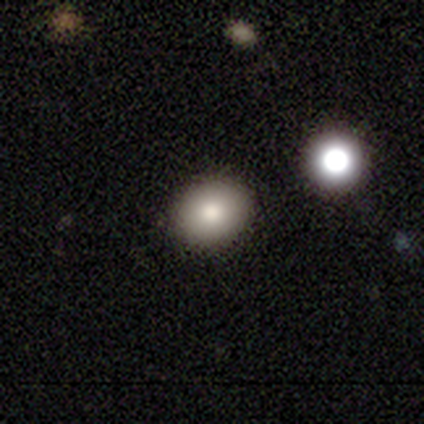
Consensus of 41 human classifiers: Smooth or featured? 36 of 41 (88%) said smooth. How rounded? 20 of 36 (56%) said round. Merging? 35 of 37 (95%) said none.